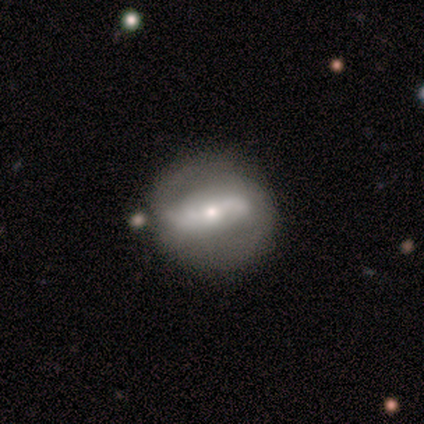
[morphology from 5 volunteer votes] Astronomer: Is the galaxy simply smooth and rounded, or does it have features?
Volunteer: featured or disk — 80%.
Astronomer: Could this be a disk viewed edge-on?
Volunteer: no — 100%.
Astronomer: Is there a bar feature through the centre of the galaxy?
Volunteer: no — 50%.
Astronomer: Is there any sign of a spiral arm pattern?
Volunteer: no — 75%.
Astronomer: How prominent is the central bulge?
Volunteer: moderate — 50%, tied with small at 50%.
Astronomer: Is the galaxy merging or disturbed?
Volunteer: minor disturbance — 75%.